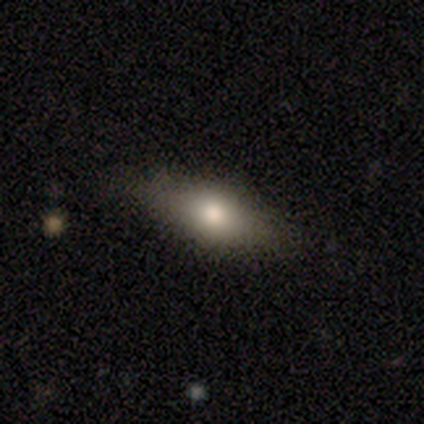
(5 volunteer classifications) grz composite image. It shows a smooth galaxy with no disk features (60%) that is in between round and cigar-shaped (100%). Merging: none (100%).